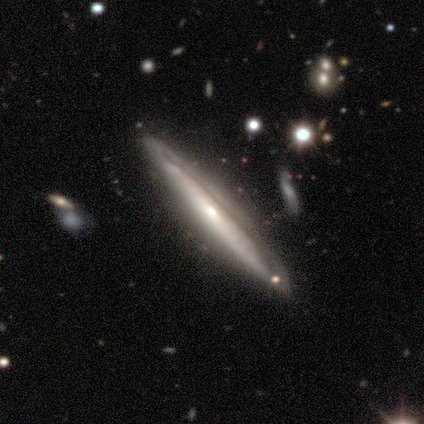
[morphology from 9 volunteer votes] Smooth or featured? 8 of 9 (89%) said featured or disk. Edge-on disk? 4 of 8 (50%, tied with no) said yes. Edge-on bulge? 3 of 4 (75%) said rounded. Merging? 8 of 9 (89%) said none.